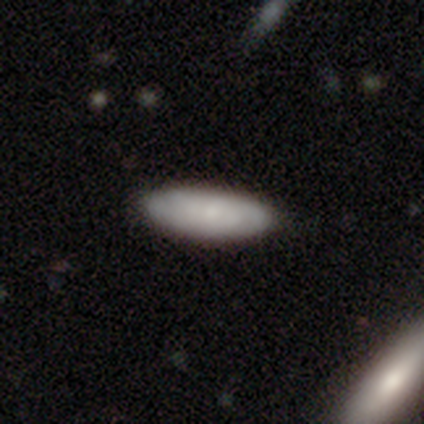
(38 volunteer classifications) Q: Smooth or featured?
A: smooth (50%); runner-up: featured or disk (42%)
Q: How rounded?
A: in between (68%); runner-up: cigar-shaped (32%)
Q: Merging?
A: none (66%); runner-up: minor disturbance (11%)